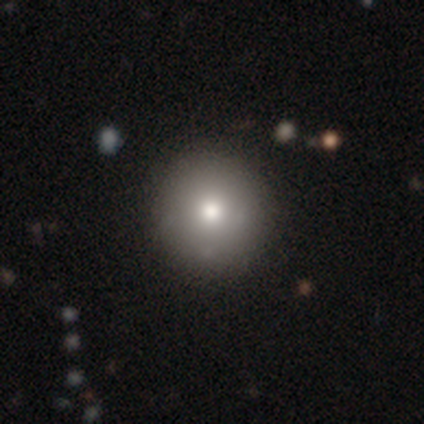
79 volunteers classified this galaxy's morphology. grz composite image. It shows a smooth galaxy with no disk features (84%) that is round (100%). Merging: none (80%).